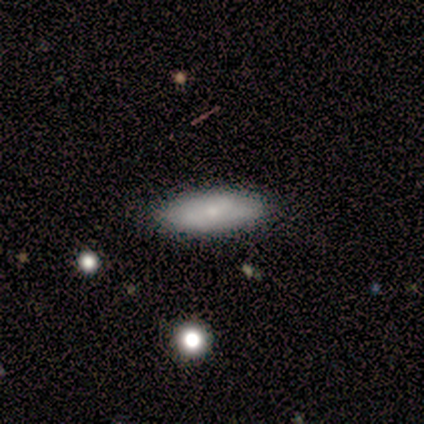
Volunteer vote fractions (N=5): This is clearly a smooth galaxy (80%). How rounded: likely in between (75%). Merging: clearly none (100%).